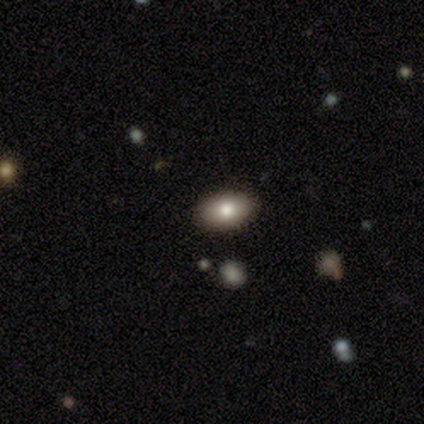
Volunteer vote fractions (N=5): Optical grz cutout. It shows a smooth galaxy with no disk features (80%) that is in between round and cigar-shaped (100%). Merging: none (100%).